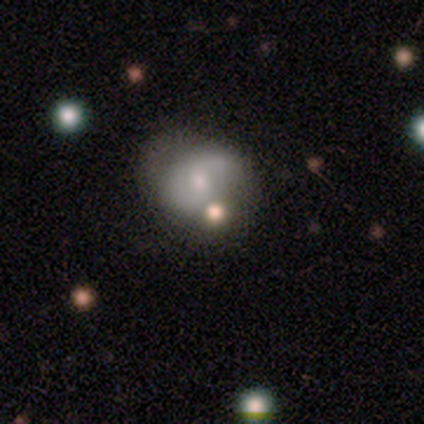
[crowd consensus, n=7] This is possibly a featured or disk galaxy (57%). It is clearly not viewed edge-on (100%). Bar: likely no (75%). Spiral arm pattern: likely yes (75%). Spiral arm count: marginally 1 (33%, tied with 2 and can't tell). Spiral winding: likely loose (67%). Central bulge: possibly moderate (50%, tied with small). Merging: possibly none (50%).